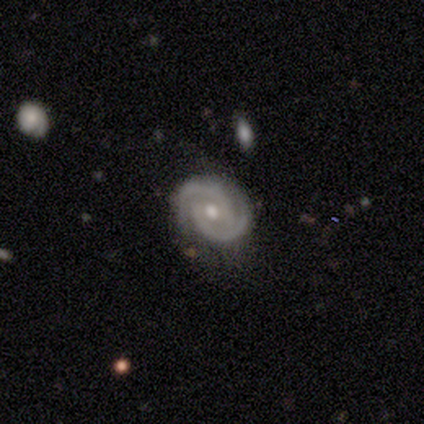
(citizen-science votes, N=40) A featured or disk galaxy (90%) with no bar (44%), 2 (97%) tight (53%) spiral arms (100%) and a moderate central bulge (89%).

Vote fractions:
- Smooth or featured? featured or disk: 90% / star or artifact: 8% / smooth: 2%
- Edge-on disk? no: 100% / yes: 0%
- Bar? no: 44% / weak: 31% / strong: 25%
- Spiral arms? yes: 100% / no: 0%
- Spiral winding? tight: 53% / medium: 44% / loose: 3%
- Spiral arm count? 2: 97% / can't tell: 3% / 1: 0% / 3: 0% / 4: 0% / more than 4: 0%
- Bulge size? moderate: 89% / small: 11% / dominant: 0% / large: 0% / none: 0%
- Merging? none: 76% / minor disturbance: 19% / major disturbance: 5% / merger: 0%